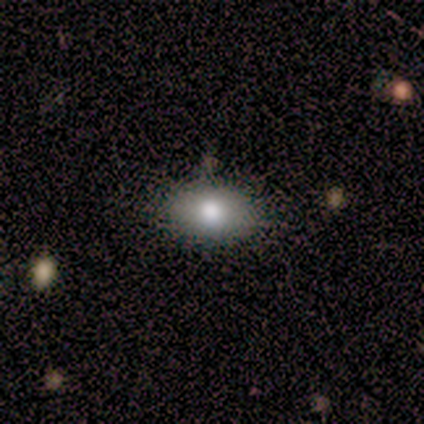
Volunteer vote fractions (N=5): smooth 100%, featured or disk 0%, star or artifact 0%. Down the decision tree: how rounded — in between (100%); merging — none (100%).